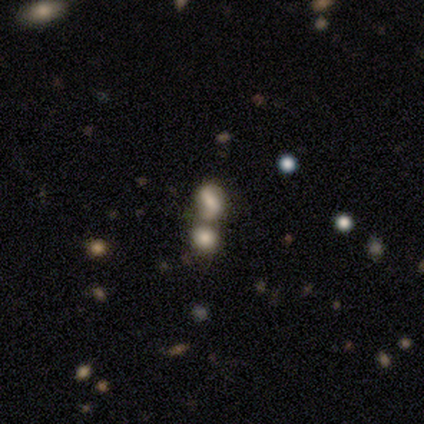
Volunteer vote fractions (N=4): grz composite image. It shows a smooth galaxy with no disk features (75%) that is in between round and cigar-shaped (100%). Merging: merger (100%).